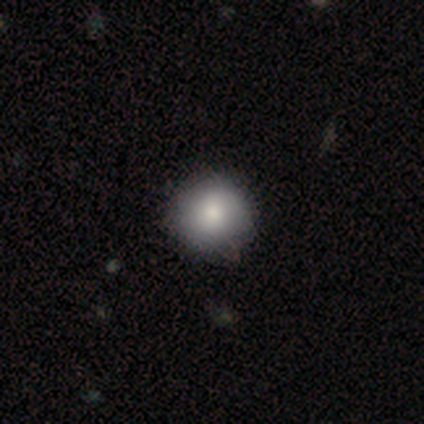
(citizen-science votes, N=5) Smooth or featured? smooth (80%)
How rounded? round (75%)
Merging? none (75%)